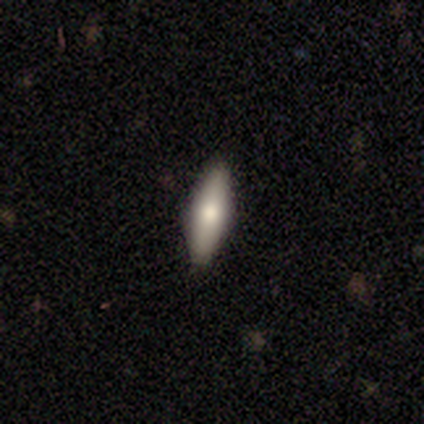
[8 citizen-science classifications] Smooth or featured? smooth (50%, tied with featured or disk)
How rounded? cigar-shaped (100%)
Merging? none (100%)